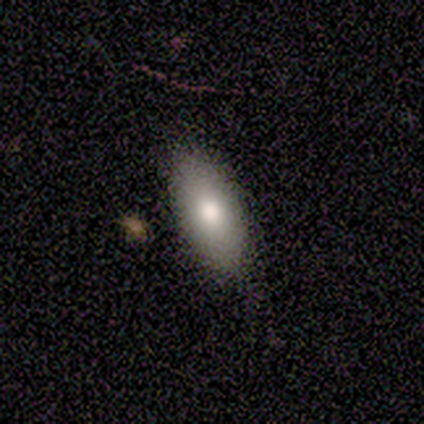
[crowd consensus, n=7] Q: Smooth or featured?
A: smooth (100%)
Q: How rounded?
A: in between (100%)
Q: Merging?
A: none (86%); runner-up: minor disturbance (14%)